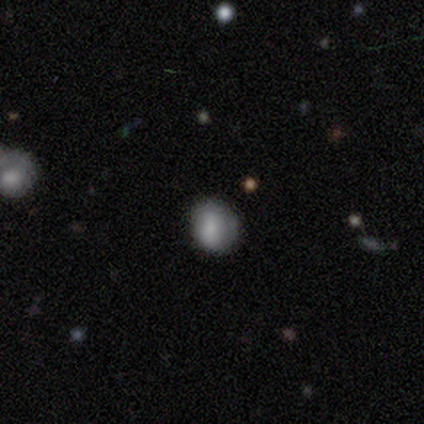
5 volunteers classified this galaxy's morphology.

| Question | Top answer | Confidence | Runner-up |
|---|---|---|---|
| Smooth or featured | smooth | 80% | featured or disk (20%) |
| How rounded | in between | 75% | round (25%) |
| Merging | none | 40% | tied: minor disturbance (40%) |